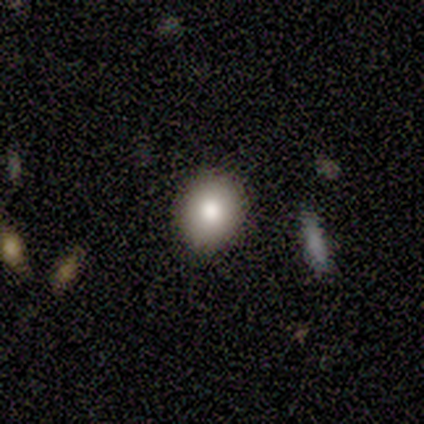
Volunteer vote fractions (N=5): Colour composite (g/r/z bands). It shows a smooth galaxy with no disk features (100%) that is round (60%). Merging: none (100%).